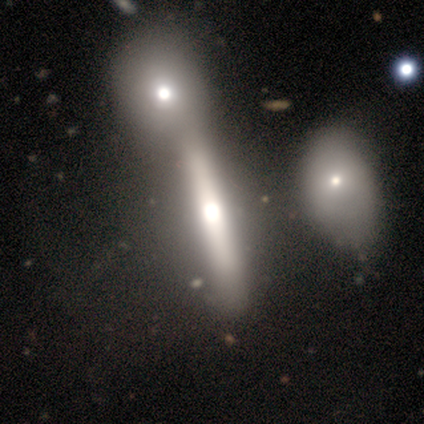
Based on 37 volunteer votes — Smooth or featured? 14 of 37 (38%) said featured or disk. Edge-on disk? 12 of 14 (86%) said yes. Edge-on bulge? 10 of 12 (83%) said rounded. Merging? 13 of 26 (50%) said merger.